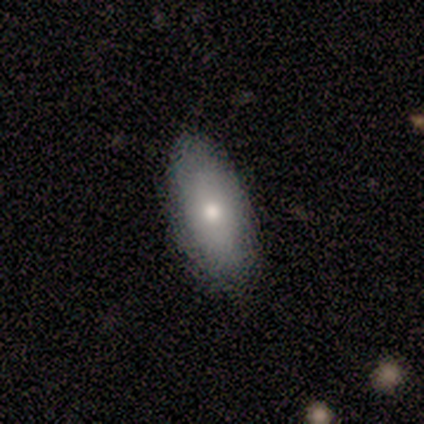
smooth 72%, featured or disk 26%, star or artifact 3%. Down the decision tree: how rounded — in between (93%); merging — none (87%).